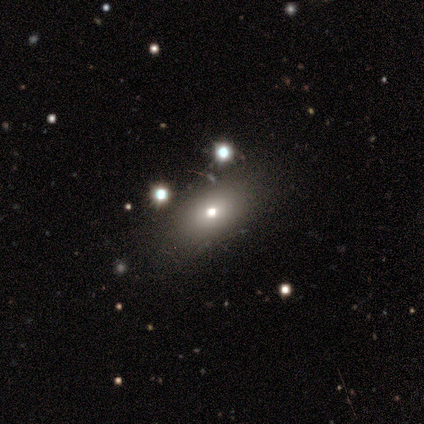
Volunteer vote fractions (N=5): smooth 60%, featured or disk 20%, star or artifact 20%. Down the decision tree: how rounded — in between (100%); merging — none (50%).